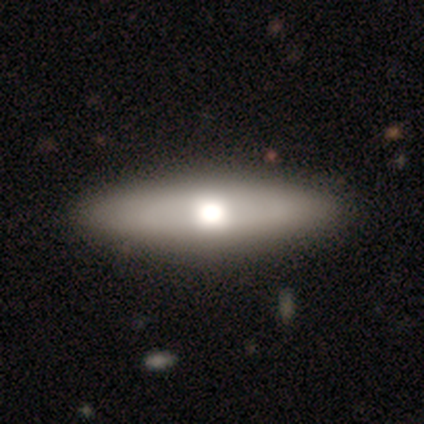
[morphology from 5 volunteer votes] Smooth or featured: smooth — 40% (tied with featured or disk — 40%)
How rounded: in between — 100%
Merging: none — 100%